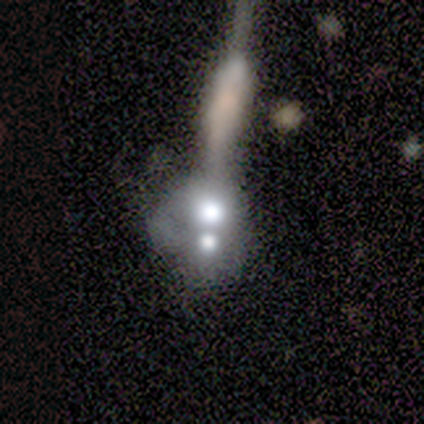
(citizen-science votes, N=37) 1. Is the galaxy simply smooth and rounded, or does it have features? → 38% smooth (tied), 38% featured or disk (tied), 24% star or artifact.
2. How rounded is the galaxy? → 50% round, 29% in between, 21% cigar-shaped.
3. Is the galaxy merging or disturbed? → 64% merger, 14% none, 14% major disturbance, 7% minor disturbance.